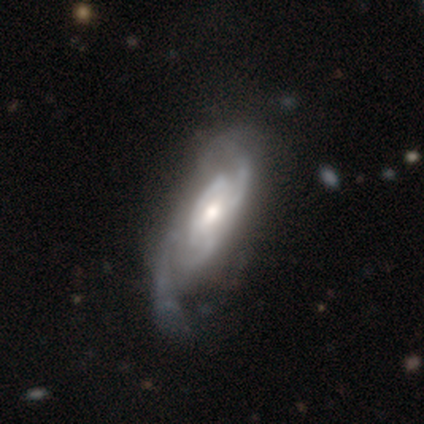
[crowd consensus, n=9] Smooth or featured?
  - featured or disk: 89% *
  - smooth: 11%
  - star or artifact: 0%
Edge-on disk?
  - no: 75% *
  - yes: 25%
Bar?
  - no: 83% *
  - weak: 17%
  - strong: 0%
Spiral arms?
  - yes: 100% *
  - no: 0%
Spiral winding?
  - medium: 50% *
  - tight: 33%
  - loose: 17%
Spiral arm count?
  - 2: 50% * (tied)
  - can't tell: 50% * (tied)
  - 1: 0%
  - 3: 0%
  - 4: 0%
  - more than 4: 0%
Bulge size?
  - moderate: 83% *
  - small: 17%
  - dominant: 0%
  - large: 0%
  - none: 0%
Merging?
  - none: 56% *
  - minor disturbance: 33%
  - major disturbance: 11%
  - merger: 0%